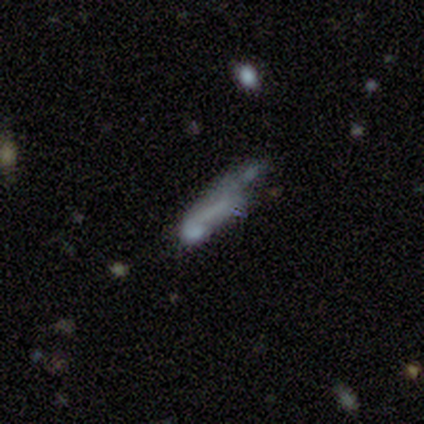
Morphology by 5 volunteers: This appears to be a smooth galaxy with no disk features (40%, tied with featured or disk) that is cigar-shaped (100%). Merging: none (75%).